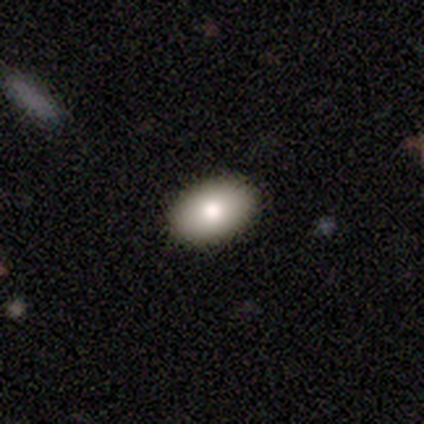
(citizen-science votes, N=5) Overall: smooth (100%). How rounded: in between (80%). Merging: none (100%).